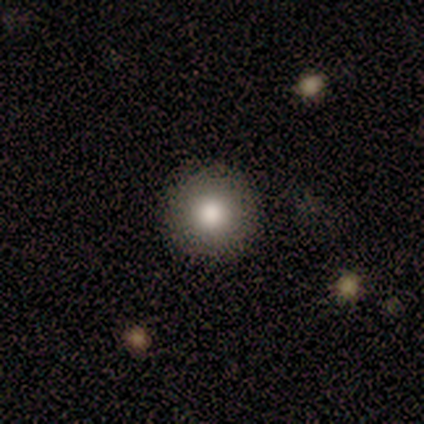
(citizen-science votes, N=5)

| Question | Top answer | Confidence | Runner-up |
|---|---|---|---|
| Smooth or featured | smooth | 100% | — |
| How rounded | round | 100% | — |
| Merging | none | 100% | — |